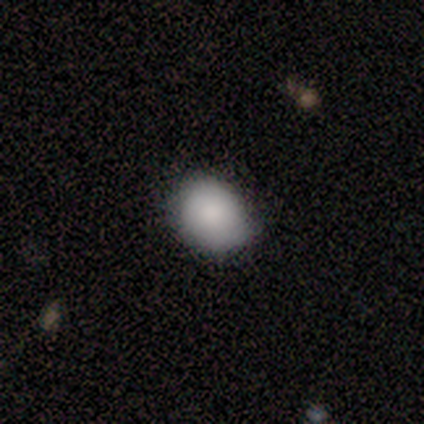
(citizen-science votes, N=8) Smooth or featured? 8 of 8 (100%) said smooth. How rounded? 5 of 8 (62%) said round. Merging? 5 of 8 (62%) said none.